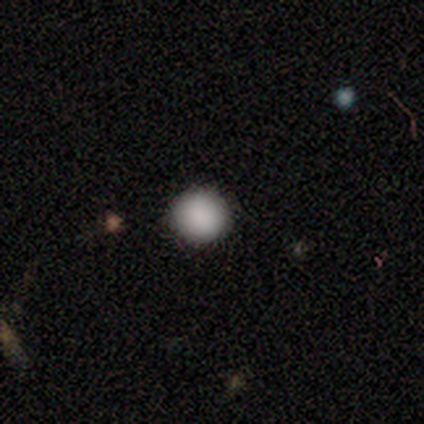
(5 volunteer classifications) This is clearly a smooth galaxy (80%). How rounded: clearly round (100%). Merging: clearly none (100%).